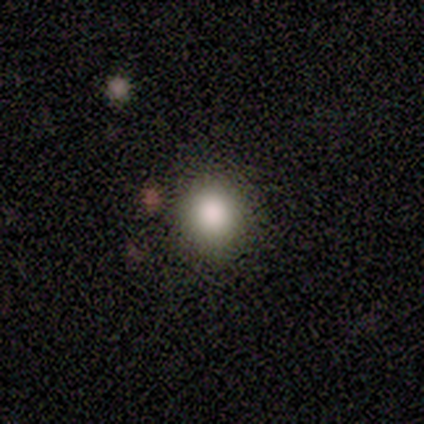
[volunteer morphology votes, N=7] A smooth galaxy with no disk features (86%) that is round (67%). Merging: none (100%).